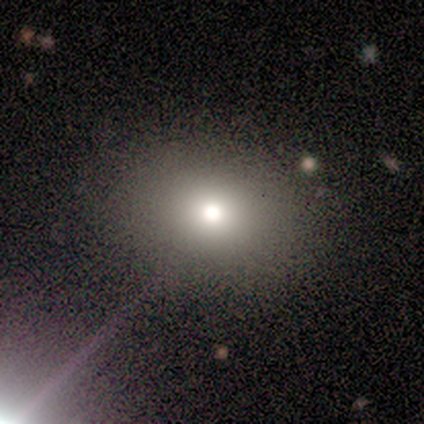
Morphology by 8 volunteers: This is marginally a smooth galaxy (38%, tied with star or artifact). How rounded: likely round (67%). Merging: likely none (60%).